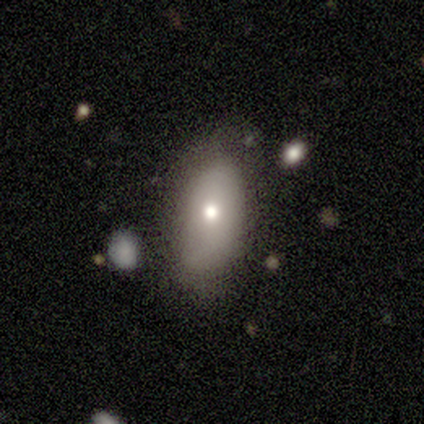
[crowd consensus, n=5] Overall: smooth (100%). How rounded: in between (60%; round 20%). Merging: none (80%).